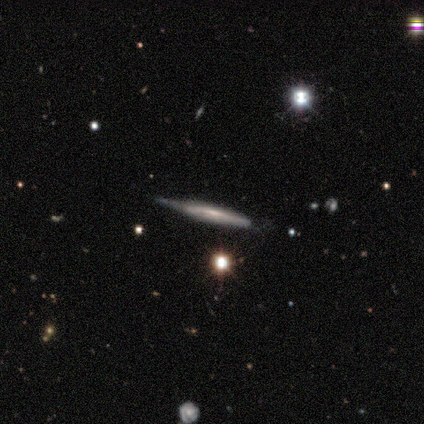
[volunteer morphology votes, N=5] Smooth or featured?
  - featured or disk: 60% *
  - smooth: 40%
  - star or artifact: 0%
Edge-on disk?
  - yes: 100% *
  - no: 0%
Edge-on bulge?
  - none: 67% *
  - rounded: 33%
  - boxy: 0%
Merging?
  - none: 40% * (tied)
  - minor disturbance: 40% * (tied)
  - major disturbance: 20%
  - merger: 0%